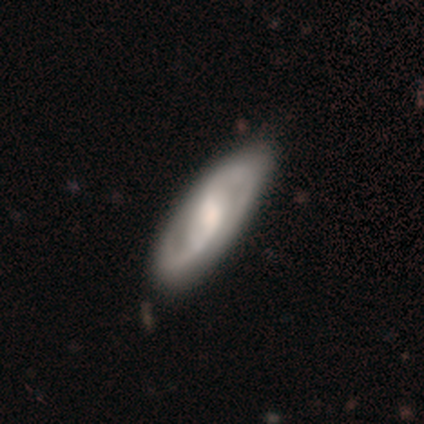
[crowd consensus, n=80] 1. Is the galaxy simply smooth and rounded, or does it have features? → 79% featured or disk, 21% smooth, 0% star or artifact.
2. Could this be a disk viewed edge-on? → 87% no, 13% yes.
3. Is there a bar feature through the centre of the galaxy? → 49% weak, 27% no, 24% strong.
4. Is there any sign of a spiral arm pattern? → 91% yes, 9% no.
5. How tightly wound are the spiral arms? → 50% medium, 30% tight, 20% loose.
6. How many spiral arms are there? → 86% 2, 12% can't tell, 2% 4, 0% 1, 0% 3, 0% more than 4.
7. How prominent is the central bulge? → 55% moderate, 16% small, 15% none, 11% large, 4% dominant.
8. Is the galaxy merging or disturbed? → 36% none, 9% minor disturbance, 5% major disturbance, 2% merger.